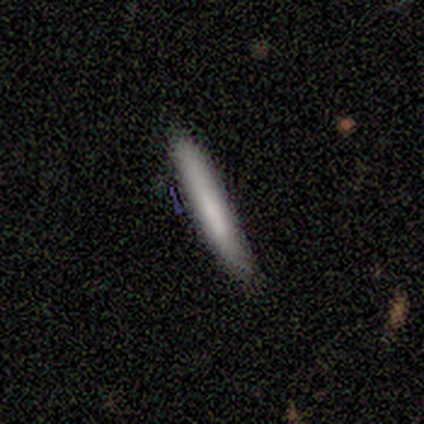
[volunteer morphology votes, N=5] Smooth or featured? 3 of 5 (60%) said smooth. How rounded? 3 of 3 (100%) said cigar-shaped. Merging? 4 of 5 (80%) said none.